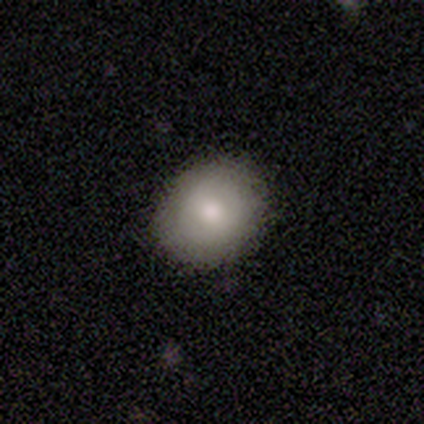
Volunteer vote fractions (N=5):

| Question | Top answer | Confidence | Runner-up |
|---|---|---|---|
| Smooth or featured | smooth | 80% | featured or disk (20%) |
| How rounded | round | 75% | in between (25%) |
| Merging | none | 100% | — |